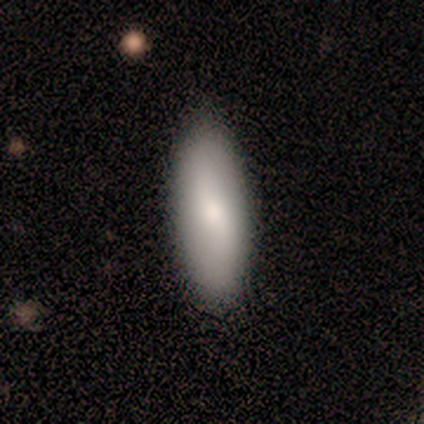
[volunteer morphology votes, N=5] Smooth or featured? featured or disk (60%)
Edge-on disk? no (100%)
Bar? no (67%)
Spiral arms? no (67%)
Bulge size? moderate (100%)
Merging? none (80%)